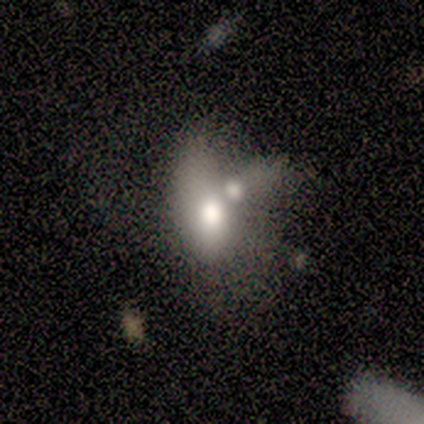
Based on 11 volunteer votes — Q: Smooth or featured?
A: smooth (73%); runner-up: featured or disk (27%)
Q: How rounded?
A: in between (88%); runner-up: cigar-shaped (12%)
Q: Merging?
A: merger (36%); runner-up: none (27%)